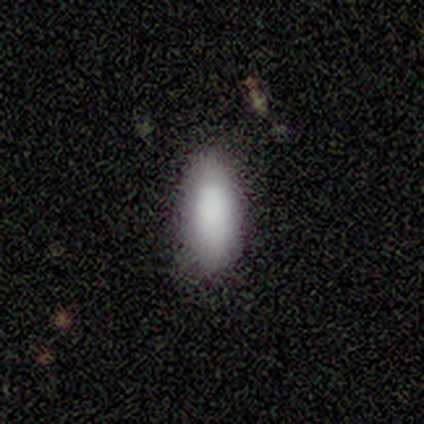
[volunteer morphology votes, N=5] Smooth or featured? 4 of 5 (80%) said smooth. How rounded? 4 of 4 (100%) said in between. Merging? 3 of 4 (75%) said none.